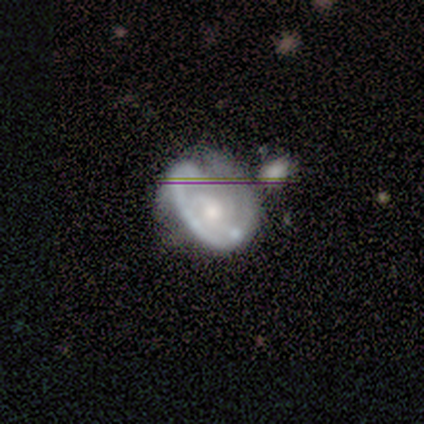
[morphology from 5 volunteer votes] Smooth or featured? 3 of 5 (60%) said featured or disk. Edge-on disk? 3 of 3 (100%) said no. Bar? 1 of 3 (33%, tied with weak and no) said strong. Spiral arms? 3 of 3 (100%) said yes. Spiral winding? 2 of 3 (67%) said medium. Spiral arm count? 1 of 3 (33%, tied with 2 and can't tell) said 1. Bulge size? 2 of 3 (67%) said moderate. Merging? 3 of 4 (75%) said none.